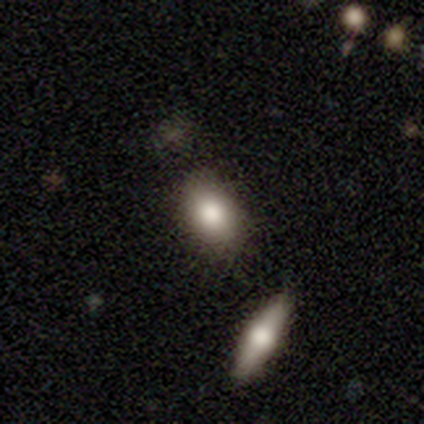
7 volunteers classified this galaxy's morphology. smooth_or_featured: smooth (p=0.57) [alt: featured or disk p=0.29]
how_rounded: in between (p=1.00)
merging: none (p=0.50) [alt: major disturbance p=0.33]